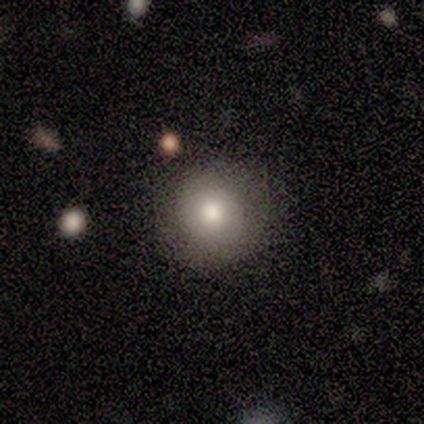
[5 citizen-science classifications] smooth-or-featured: smooth: 80% | featured or disk: 20% | star or artifact: 0%
  how-rounded: round: 100% | in between: 0% | cigar-shaped: 0%
  merging: none: 100% | minor disturbance: 0% | major disturbance: 0% | merger: 0%